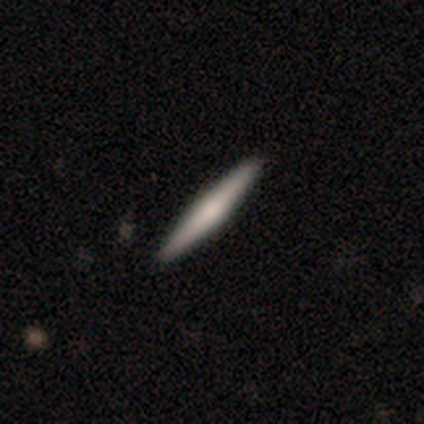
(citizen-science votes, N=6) Volunteers were most divided on "edge-on bulge": rounded: 50%, boxy: 25%, none: 25%. More confident: edge-on disk — yes (100%); merging — none (100%); smooth or featured — featured or disk (67%).